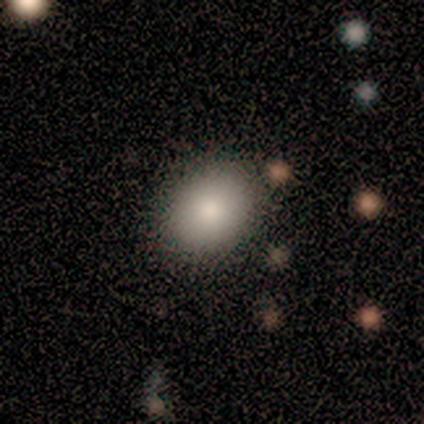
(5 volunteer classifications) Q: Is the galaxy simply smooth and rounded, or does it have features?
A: smooth — 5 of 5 (100%).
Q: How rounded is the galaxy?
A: in between — 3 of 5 (60%).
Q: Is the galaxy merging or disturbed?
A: none — 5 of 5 (100%).